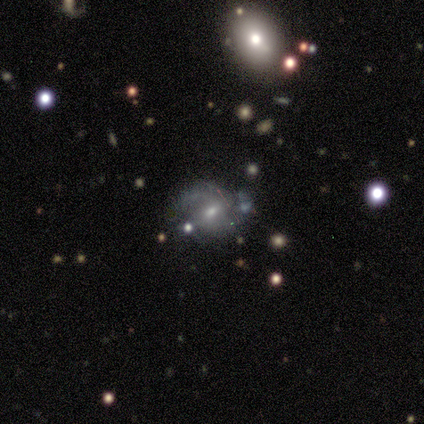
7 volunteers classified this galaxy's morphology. featured or disk 57%, star or artifact 29%, smooth 14%. Down the decision tree: edge-on disk — no (100%); bar — weak (75%); spiral arms — yes (75%); spiral arm count — 2 (33%, tied with 4 and can't tell); spiral winding — medium (67%); bulge size — moderate (75%); merging — none (60%).